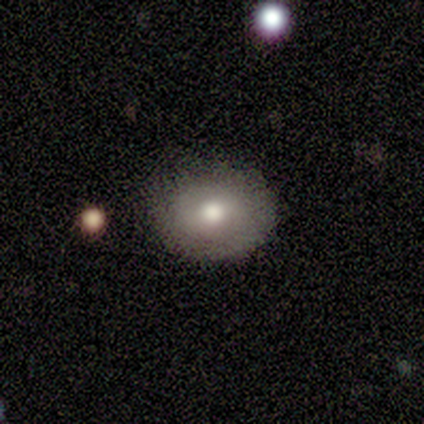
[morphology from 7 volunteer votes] type=smooth (57%); roundness=round (100%); merging=none (86%).